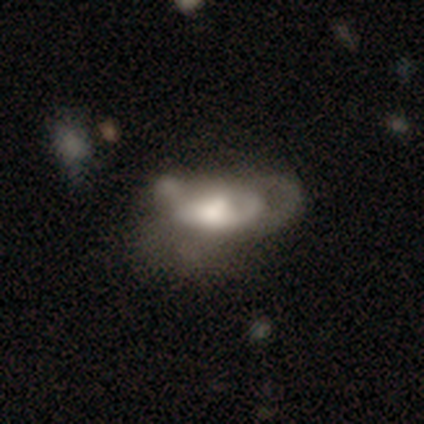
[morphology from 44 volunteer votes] A featured or disk galaxy (52%) with no bar (85%), no spiral arms (60%) and a moderate central bulge (45%). Merging: major disturbance (49%).